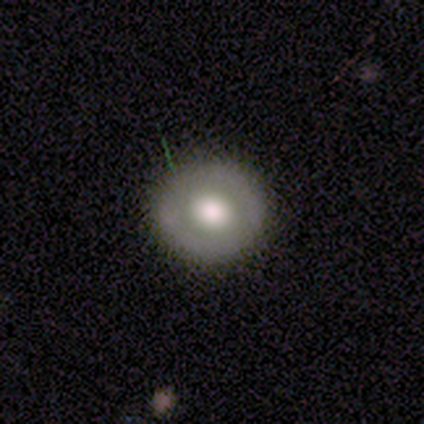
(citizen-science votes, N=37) Q: Smooth or featured?
A: smooth (57%); runner-up: featured or disk (41%)
Q: How rounded?
A: round (86%); runner-up: in between (14%)
Q: Merging?
A: none (89%); runner-up: minor disturbance (11%)